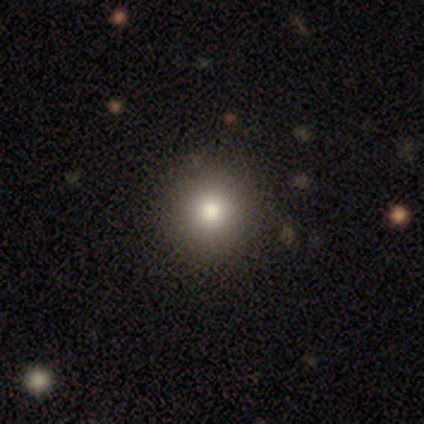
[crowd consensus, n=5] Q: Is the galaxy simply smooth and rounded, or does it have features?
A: smooth — 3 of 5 (60%).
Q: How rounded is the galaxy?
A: round — 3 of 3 (100%).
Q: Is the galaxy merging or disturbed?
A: none — 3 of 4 (75%).